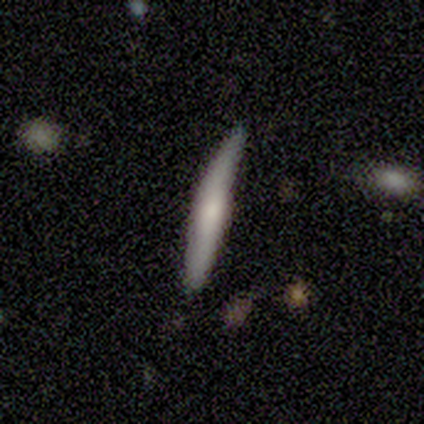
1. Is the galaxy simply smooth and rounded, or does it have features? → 53% featured or disk, 39% smooth, 8% star or artifact.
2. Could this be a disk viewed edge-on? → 96% yes, 4% no.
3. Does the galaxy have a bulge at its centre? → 64% rounded, 24% none, 12% boxy.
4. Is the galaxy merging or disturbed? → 53% none, 40% minor disturbance, 7% merger, 0% major disturbance.